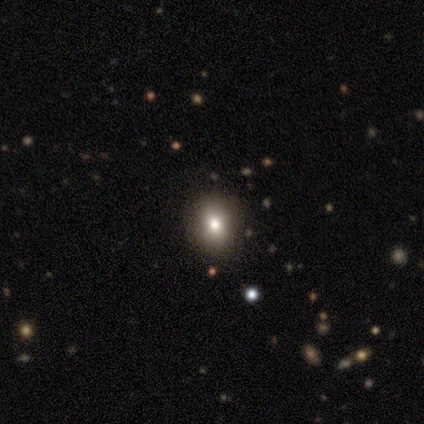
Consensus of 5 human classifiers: Volunteers were most divided on "merging": none: 60%, minor disturbance: 20%, merger: 20%, major disturbance: 0%. More confident: smooth or featured — smooth (80%); how rounded — in between (75%).